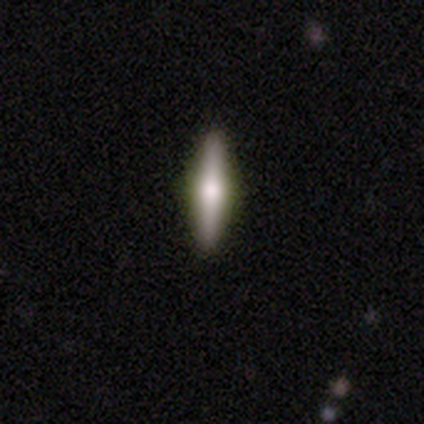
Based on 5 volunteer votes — Smooth or featured: smooth — 60% (featured or disk — 40%)
How rounded: cigar-shaped — 100%
Merging: none — 80% (minor disturbance — 20%)